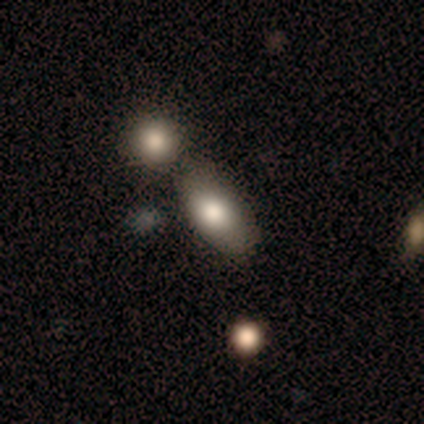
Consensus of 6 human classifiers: Volunteers were most divided on "smooth or featured": smooth: 67%, featured or disk: 33%, star or artifact: 0%. More confident: merging — none (83%); how rounded — in between (75%).